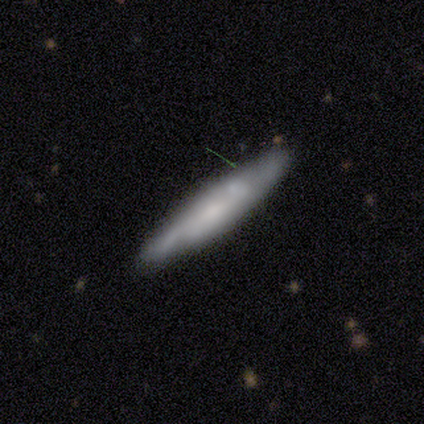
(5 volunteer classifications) Overall: smooth (80%). How rounded: cigar-shaped (100%). Merging: none (60%; merger 40%).